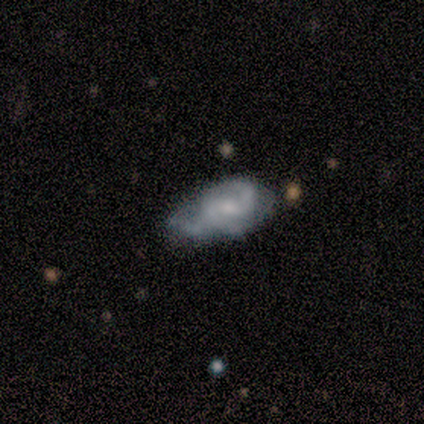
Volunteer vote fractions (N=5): This appears to be a featured or disk galaxy (80%) with a weak bar (67%), 2 (33%, tied with 3 and can't tell) medium (67%) spiral arms (100%) and a small central bulge (100%). Merging: minor disturbance (75%).